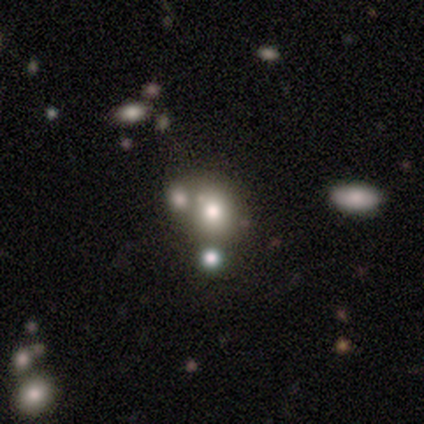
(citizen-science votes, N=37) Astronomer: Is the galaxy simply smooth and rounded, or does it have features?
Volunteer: smooth — 68%.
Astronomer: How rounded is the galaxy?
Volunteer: round — 88%.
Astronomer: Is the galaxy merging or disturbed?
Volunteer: merger — 48% (runner-up: none, 41%).